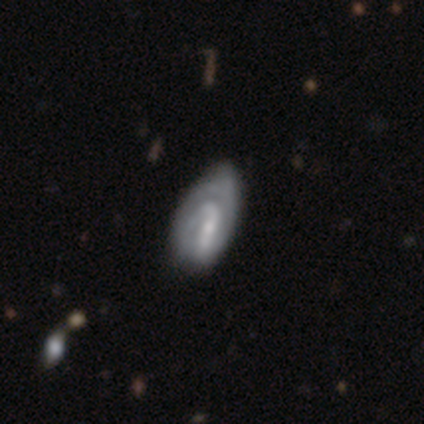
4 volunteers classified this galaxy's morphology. smooth_or_featured: featured or disk (p=0.75) [alt: smooth p=0.25]
disk_edge_on: no (p=1.00)
bar: strong (p=0.67) [alt: weak p=0.33]
has_spiral_arms: yes (p=1.00)
spiral_winding: tight (p=0.67) [alt: loose p=0.33]
spiral_arm_count: 1 (p=0.33) [tied with: 2 p=0.33, can't tell p=0.33]
bulge_size: small (p=0.67) [alt: moderate p=0.33]
merging: minor disturbance (p=0.50) [alt: none p=0.25]